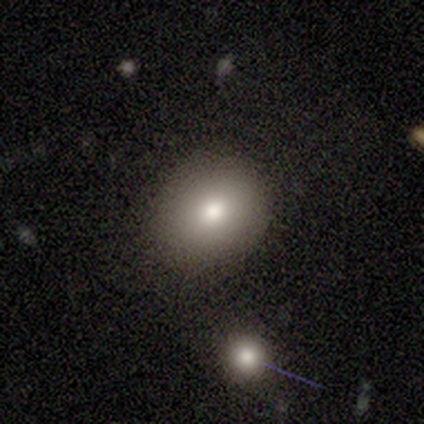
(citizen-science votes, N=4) Smooth or featured: smooth — 100%
How rounded: in between — 75% (round — 25%)
Merging: none — 75% (minor disturbance — 25%)